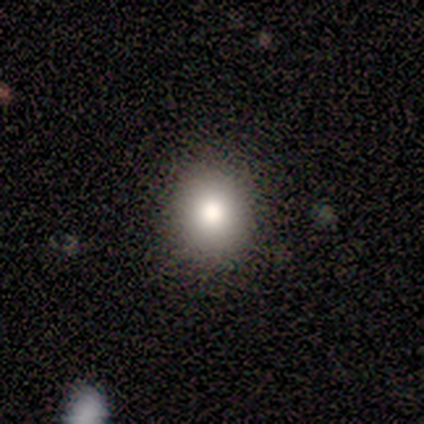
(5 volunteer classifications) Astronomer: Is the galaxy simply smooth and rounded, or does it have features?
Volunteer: smooth — 80%.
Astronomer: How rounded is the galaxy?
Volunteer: round — 75%.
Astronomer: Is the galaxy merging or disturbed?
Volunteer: none — 60% (runner-up: minor disturbance, 40%).